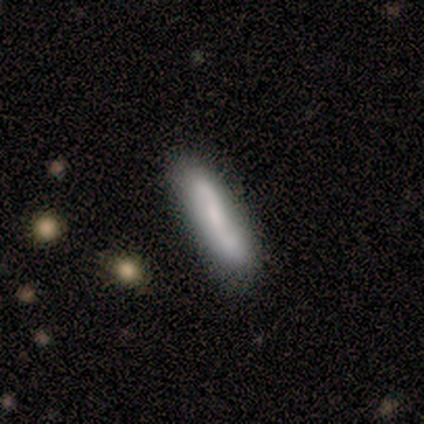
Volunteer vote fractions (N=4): Morphology: type=featured or disk (75%); edge-on=no (67%); bar=no (100%); spiral arms=yes (100%); winding=tight (50%, tied with medium); arm count=1 (50%, tied with 2); bulge=moderate (50%, tied with none); merging=none (75%).